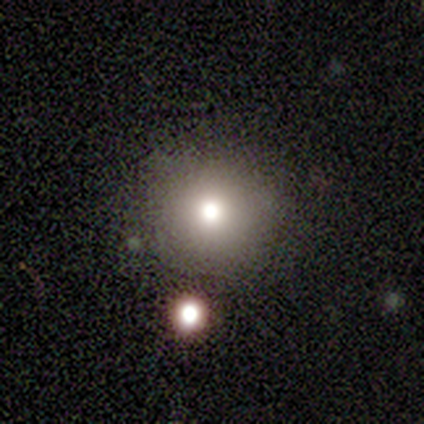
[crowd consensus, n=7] Smooth or featured?
  - smooth: 100% *
  - featured or disk: 0%
  - star or artifact: 0%
How rounded?
  - round: 100% *
  - in between: 0%
  - cigar-shaped: 0%
Merging?
  - none: 86% *
  - minor disturbance: 14%
  - major disturbance: 0%
  - merger: 0%